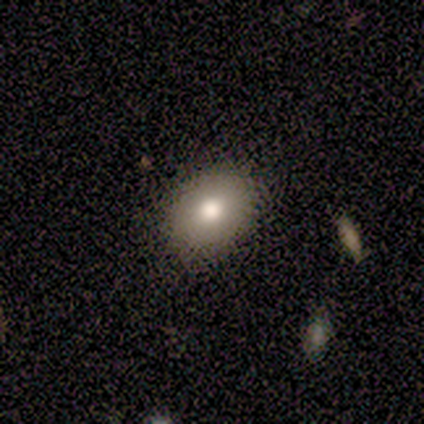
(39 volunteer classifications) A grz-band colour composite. It shows a smooth galaxy with no disk features (74%) that is in between round and cigar-shaped (76%). Merging: none (91%).